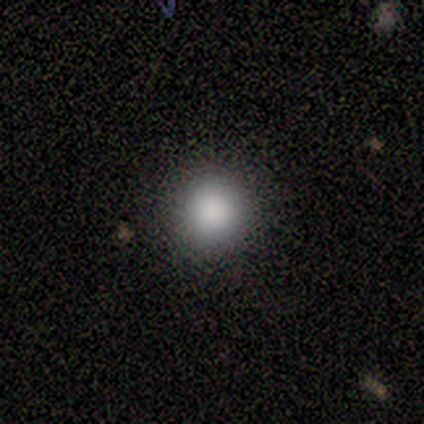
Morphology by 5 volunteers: Smooth or featured? smooth (80%)
How rounded? round (100%)
Merging? none (75%)